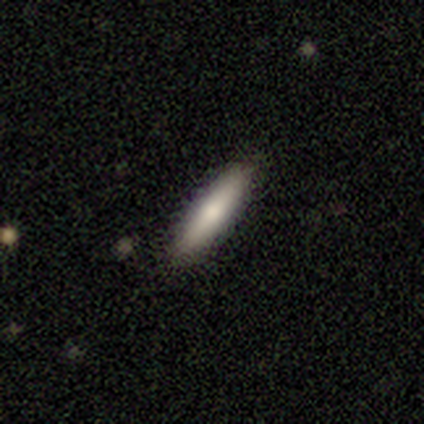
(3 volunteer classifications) Smooth or featured?
  - smooth: 100% *
  - featured or disk: 0%
  - star or artifact: 0%
How rounded?
  - cigar-shaped: 100% *
  - round: 0%
  - in between: 0%
Merging?
  - none: 100% *
  - minor disturbance: 0%
  - major disturbance: 0%
  - merger: 0%